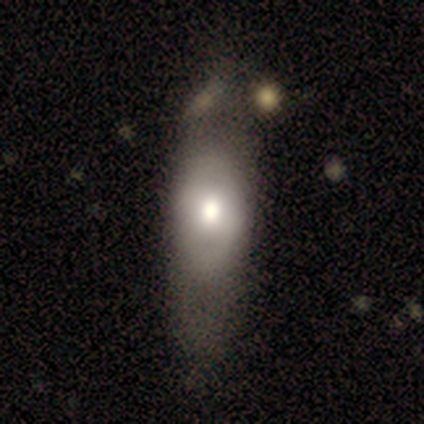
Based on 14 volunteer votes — Smooth or featured? featured or disk (64%)
Edge-on disk? no (100%)
Bar? no (67%)
Spiral arms? no (78%)
Bulge size? moderate (67%)
Merging? none (43%)